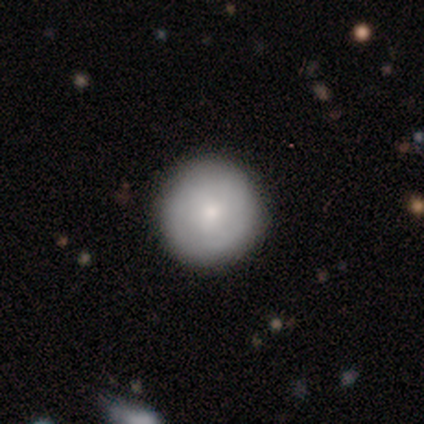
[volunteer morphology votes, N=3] Smooth or featured? smooth (100%)
How rounded? round (100%)
Merging? none (67%)